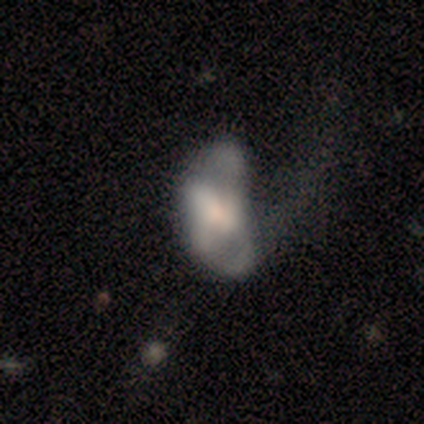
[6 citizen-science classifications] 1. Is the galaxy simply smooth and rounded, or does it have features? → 83% featured or disk, 17% smooth, 0% star or artifact.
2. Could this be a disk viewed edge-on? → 100% no, 0% yes.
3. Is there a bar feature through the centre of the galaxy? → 80% no, 20% weak, 0% strong.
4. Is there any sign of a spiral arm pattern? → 80% no, 20% yes.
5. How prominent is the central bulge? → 60% small, 40% moderate, 0% dominant, 0% large, 0% none.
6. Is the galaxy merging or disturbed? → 33% minor disturbance (tied), 33% merger (tied), 17% none, 17% major disturbance.